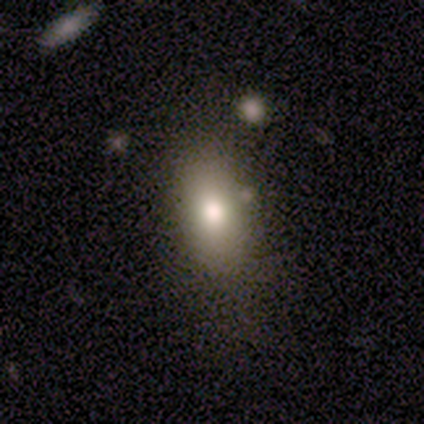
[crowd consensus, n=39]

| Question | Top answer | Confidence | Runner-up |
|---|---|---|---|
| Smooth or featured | smooth | 77% | featured or disk (13%) |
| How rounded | in between | 93% | cigar-shaped (7%) |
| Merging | none | 83% | minor disturbance (14%) |